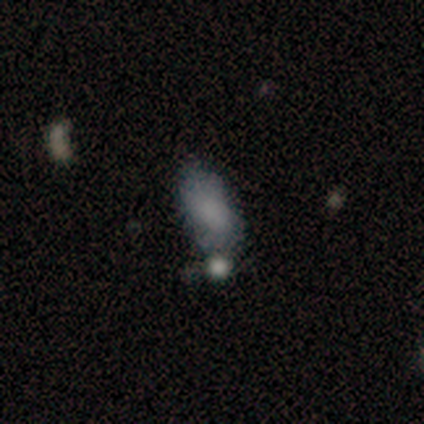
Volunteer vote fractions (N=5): Overall: smooth (80%). How rounded: in between (100%). Merging: none (60%; major disturbance 20%).